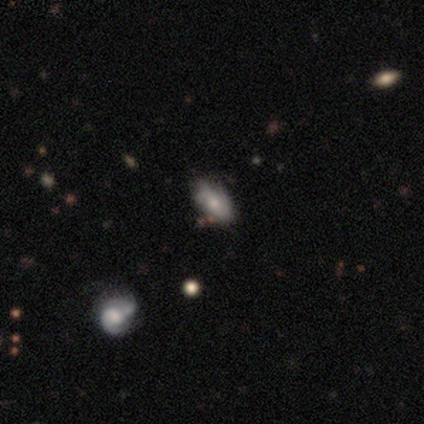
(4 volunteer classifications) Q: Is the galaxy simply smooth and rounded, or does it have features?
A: smooth — 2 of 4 (50%).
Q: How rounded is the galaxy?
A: in between — 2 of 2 (100%).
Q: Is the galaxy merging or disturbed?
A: none — 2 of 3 (67%).